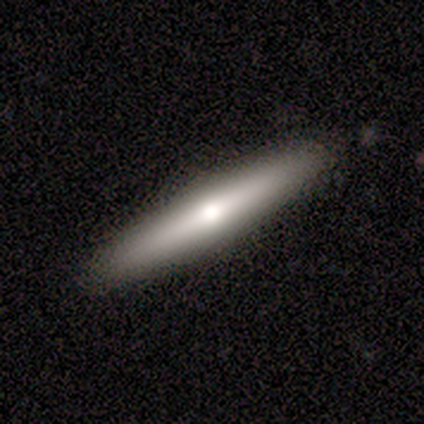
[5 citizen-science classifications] Q: Smooth or featured?
A: smooth (60%); runner-up: featured or disk (40%)
Q: How rounded?
A: cigar-shaped (100%)
Q: Merging?
A: none (100%)